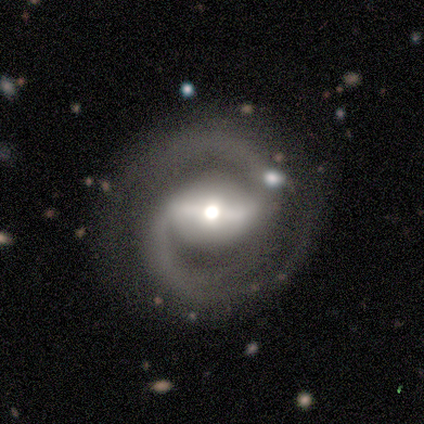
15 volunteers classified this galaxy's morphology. This appears to be a featured or disk galaxy (93%) with a strong bar (57%), 2 (100%) medium (64%) spiral arms (100%) and a moderate central bulge (71%). Merging: none (93%).